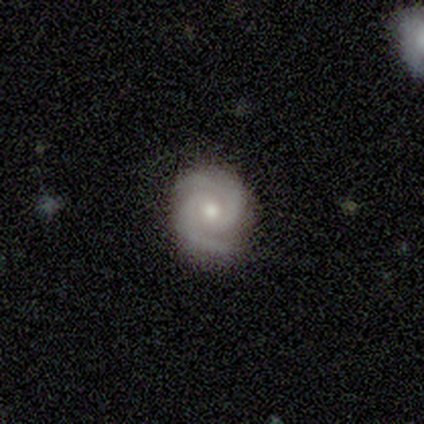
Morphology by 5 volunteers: Q: Smooth or featured?
A: featured or disk (100%)
Q: Edge-on disk?
A: no (100%)
Q: Bar?
A: no (60%); runner-up: weak (40%)
Q: Spiral arms?
A: yes (100%)
Q: Spiral winding?
A: tight (60%); runner-up: medium (40%)
Q: Spiral arm count?
A: 2 (100%)
Q: Bulge size?
A: small (60%); runner-up: moderate (40%)
Q: Merging?
A: none (100%)